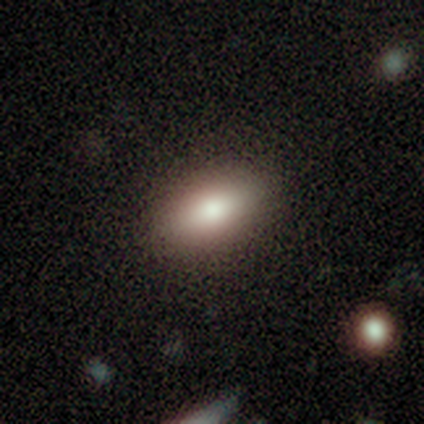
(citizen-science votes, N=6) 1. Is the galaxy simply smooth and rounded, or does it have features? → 83% smooth, 17% star or artifact, 0% featured or disk.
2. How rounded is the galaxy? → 100% in between, 0% round, 0% cigar-shaped.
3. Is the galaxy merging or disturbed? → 80% none, 20% minor disturbance, 0% major disturbance, 0% merger.